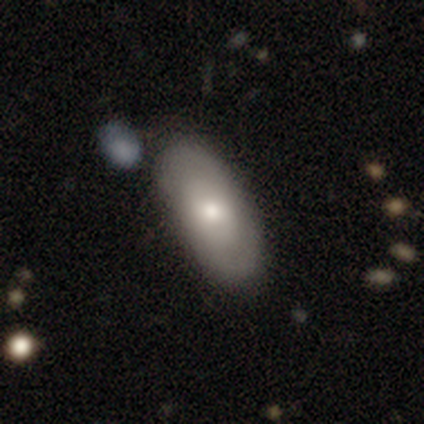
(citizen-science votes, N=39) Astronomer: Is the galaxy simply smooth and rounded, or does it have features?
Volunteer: featured or disk — 62% (runner-up: smooth, 38%).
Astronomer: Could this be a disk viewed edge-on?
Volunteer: no — 92%.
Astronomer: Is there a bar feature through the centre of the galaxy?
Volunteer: no — 68%.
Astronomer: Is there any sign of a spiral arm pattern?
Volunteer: yes — 59% (runner-up: no, 41%).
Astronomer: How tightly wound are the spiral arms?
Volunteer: tight — 46% (runner-up: medium, 31%).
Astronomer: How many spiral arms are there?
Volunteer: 2 — 92%.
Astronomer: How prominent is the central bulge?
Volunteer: moderate — 82%.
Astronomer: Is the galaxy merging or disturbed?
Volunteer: none — 64%.